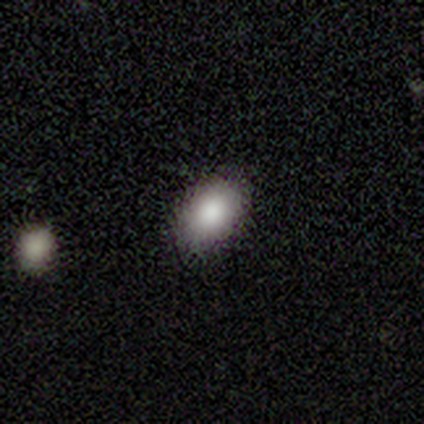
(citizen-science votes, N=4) Volunteers were most divided on "smooth or featured": smooth: 75%, featured or disk: 25%, star or artifact: 0%. More confident: how rounded — in between (100%); merging — none (75%).